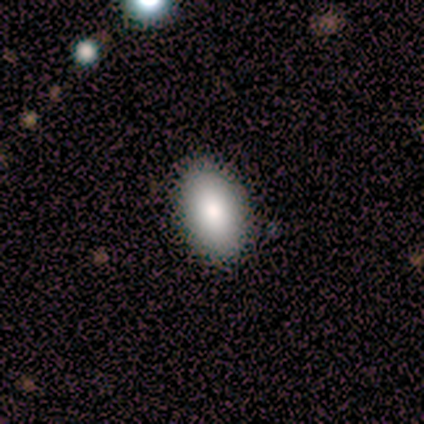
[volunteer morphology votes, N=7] A smooth galaxy with no disk features (57%) that is in between round and cigar-shaped (100%). Merging: none (83%).